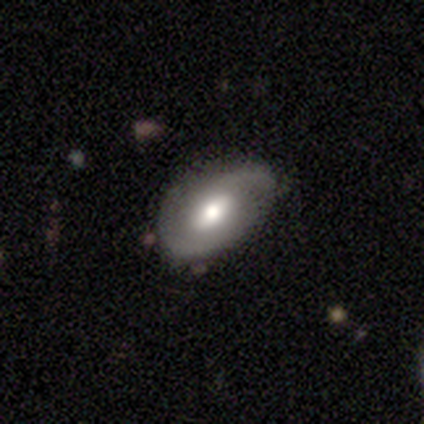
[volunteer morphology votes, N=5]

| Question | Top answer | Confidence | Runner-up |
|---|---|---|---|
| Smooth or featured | featured or disk | 80% | smooth (20%) |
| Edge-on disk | no | 100% | — |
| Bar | no | 50% | strong (25%) |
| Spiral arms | yes | 100% | — |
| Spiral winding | medium | 75% | tight (25%) |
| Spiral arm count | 2 | 100% | — |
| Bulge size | moderate | 100% | — |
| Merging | none | 80% | minor disturbance (20%) |